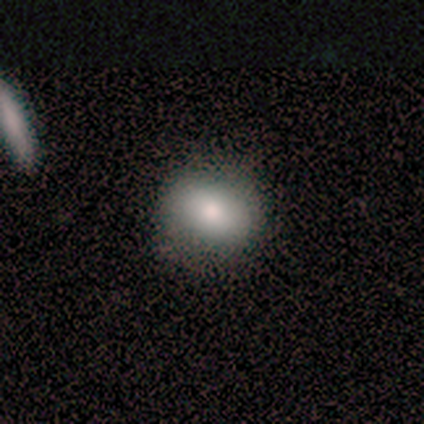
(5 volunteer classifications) smooth-or-featured: smooth: 40% (tied) | featured or disk: 40% (tied) | star or artifact: 20%
  how-rounded: in between: 100% | round: 0% | cigar-shaped: 0%
  merging: none: 75% | minor disturbance: 25% | major disturbance: 0% | merger: 0%